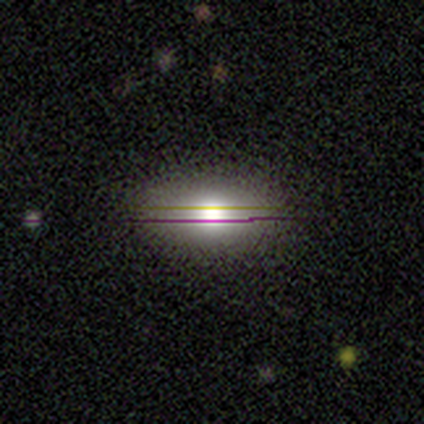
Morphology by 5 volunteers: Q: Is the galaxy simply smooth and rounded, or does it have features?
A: smooth — 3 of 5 (60%).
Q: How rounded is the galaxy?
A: in between — 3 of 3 (100%).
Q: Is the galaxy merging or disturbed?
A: none — 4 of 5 (80%).